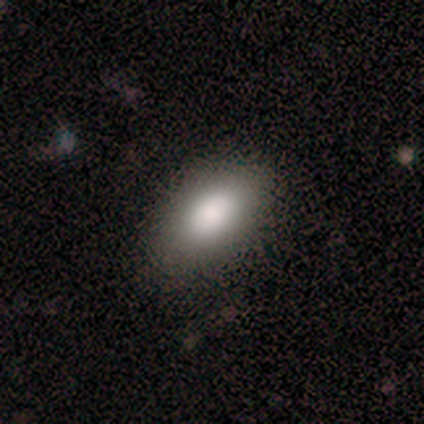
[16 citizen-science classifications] Q: Smooth or featured?
A: smooth (88%); runner-up: featured or disk (12%)
Q: How rounded?
A: in between (86%); runner-up: round (7%)
Q: Merging?
A: none (94%); runner-up: major disturbance (6%)